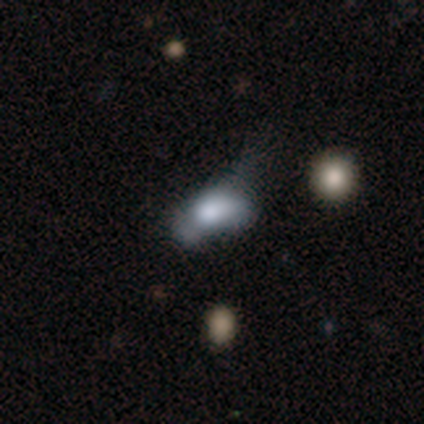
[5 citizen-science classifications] This appears to be a smooth galaxy with no disk features (80%) that is round (50%, tied with in between). Merging: major disturbance (40%).